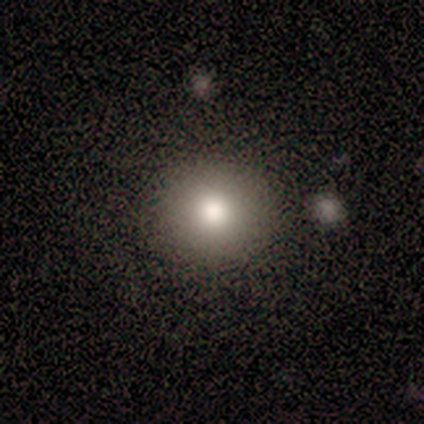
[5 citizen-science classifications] Smooth or featured? smooth (40%, tied with featured or disk)
How rounded? round (50%, tied with in between)
Merging? none (75%)